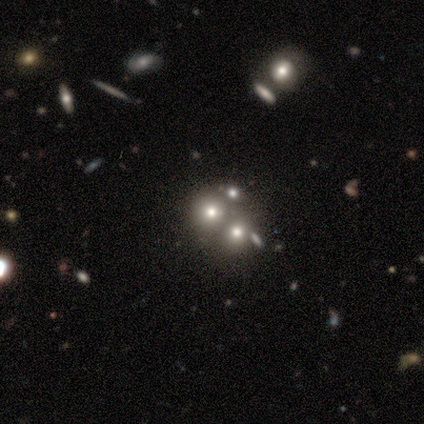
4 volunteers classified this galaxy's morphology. Smooth or featured? featured or disk (50%)
Edge-on disk? no (100%)
Bar? no (100%)
Spiral arms? no (100%)
Bulge size? large (50%, tied with none)
Merging? none (67%)